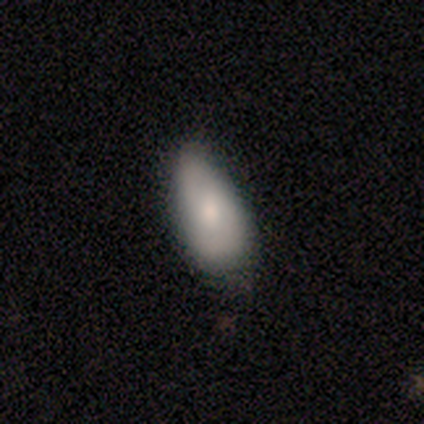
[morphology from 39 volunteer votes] Q: Smooth or featured?
A: smooth (72%); runner-up: featured or disk (21%)
Q: How rounded?
A: in between (93%); runner-up: round (4%)
Q: Merging?
A: none (67%); runner-up: minor disturbance (28%)